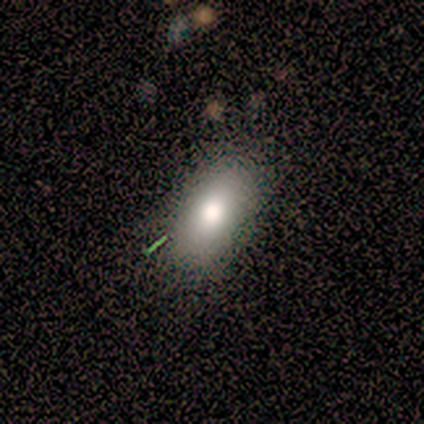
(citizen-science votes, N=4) Volunteers were most divided on "how rounded": in between: 67%, cigar-shaped: 33%, round: 0%. More confident: merging — none (100%); smooth or featured — smooth (75%).